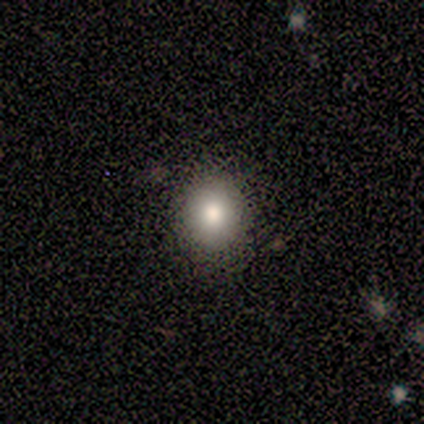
smooth 83%, star or artifact 17%, featured or disk 0%. Down the decision tree: how rounded — round (60%); merging — none (100%).